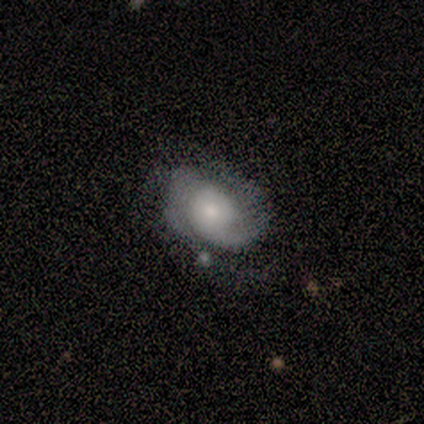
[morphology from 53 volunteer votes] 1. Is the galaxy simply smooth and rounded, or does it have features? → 87% featured or disk, 9% smooth, 4% star or artifact.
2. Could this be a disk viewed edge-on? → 98% no, 2% yes.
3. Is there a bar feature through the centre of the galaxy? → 76% no, 22% weak, 2% strong.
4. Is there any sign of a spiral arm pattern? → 93% yes, 7% no.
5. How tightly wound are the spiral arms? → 45% medium, 33% tight, 21% loose.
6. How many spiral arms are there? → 64% 2, 24% 1, 10% can't tell, 2% 3, 0% 4, 0% more than 4.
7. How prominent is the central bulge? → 56% small, 22% moderate, 18% large, 2% dominant, 2% none.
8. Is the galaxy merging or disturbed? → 59% none, 31% minor disturbance, 8% major disturbance, 2% merger.